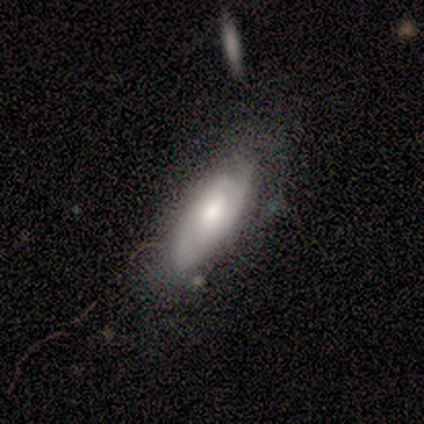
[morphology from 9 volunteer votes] A featured or disk galaxy (56%) with no bar (67%), 1 (50%, tied with 2) tight (100%) spiral arms (67%) and a moderate central bulge (67%).

Vote fractions:
- Smooth or featured? featured or disk: 56% / smooth: 44% / star or artifact: 0%
- Edge-on disk? no: 60% / yes: 40%
- Bar? no: 67% / weak: 33% / strong: 0%
- Spiral arms? yes: 67% / no: 33%
- Spiral winding? tight: 100% / medium: 0% / loose: 0%
- Spiral arm count? 1: 50% (tied) / 2: 50% (tied) / 3: 0% / 4: 0% / more than 4: 0% / can't tell: 0%
- Bulge size? moderate: 67% / small: 33% / dominant: 0% / large: 0% / none: 0%
- Merging? none: 67% / minor disturbance: 33% / major disturbance: 0% / merger: 0%